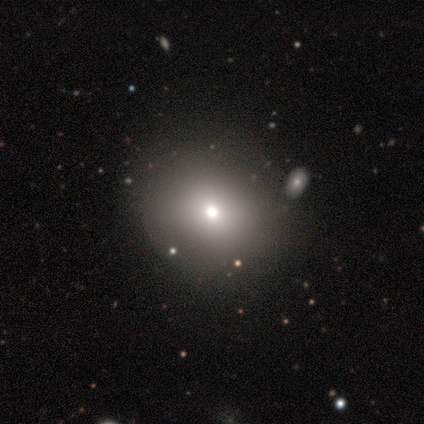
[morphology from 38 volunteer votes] This is likely a smooth galaxy (76%). How rounded: likely round (69%). Merging: possibly none (53%).